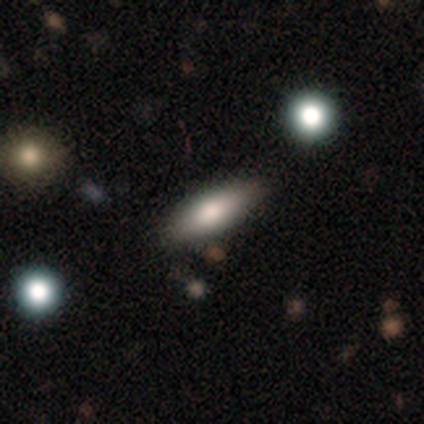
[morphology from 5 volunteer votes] Volunteers were most divided on "how rounded": cigar-shaped: 75%, in between: 25%, round: 0%. More confident: smooth or featured — smooth (80%); merging — none (80%).